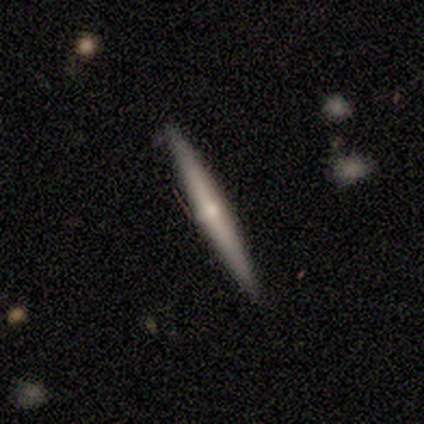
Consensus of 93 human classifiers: Smooth or featured: featured or disk — 76% (smooth — 24%)
Edge-on disk: yes — 99% (no — 1%)
Edge-on bulge: rounded — 74% (none — 24%)
Merging: none — 89% (minor disturbance — 8%)